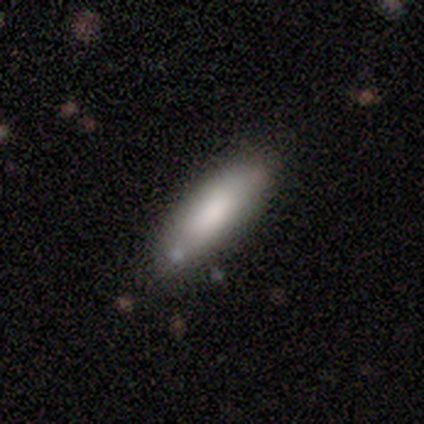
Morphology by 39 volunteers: smooth_or_featured: smooth (p=0.87) [alt: featured or disk p=0.10]
how_rounded: in between (p=0.53) [alt: cigar-shaped p=0.47]
merging: none (p=0.82) [alt: minor disturbance p=0.16]